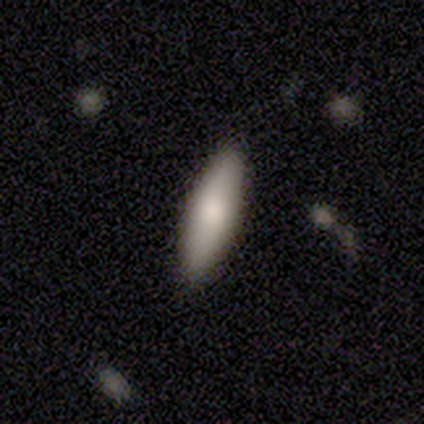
smooth-or-featured: smooth: 60% | featured or disk: 20% | star or artifact: 20%
  how-rounded: in between: 67% | cigar-shaped: 33% | round: 0%
  merging: none: 100% | minor disturbance: 0% | major disturbance: 0% | merger: 0%